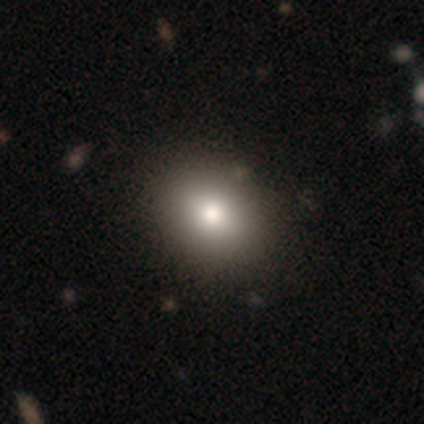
Q: Smooth or featured?
A: smooth (100%)
Q: How rounded?
A: in between (60%); runner-up: round (40%)
Q: Merging?
A: none (60%); runner-up: minor disturbance (40%)